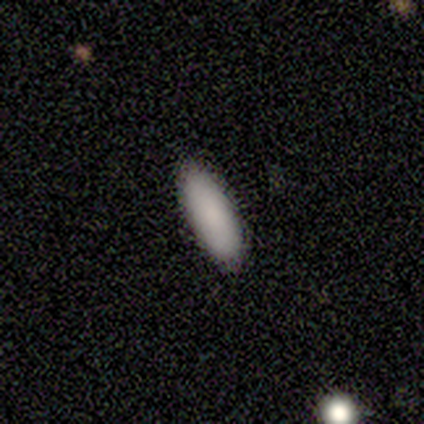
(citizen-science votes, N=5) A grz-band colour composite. It shows a smooth galaxy with no disk features (100%) that is in between round and cigar-shaped (60%). Merging: none (80%).